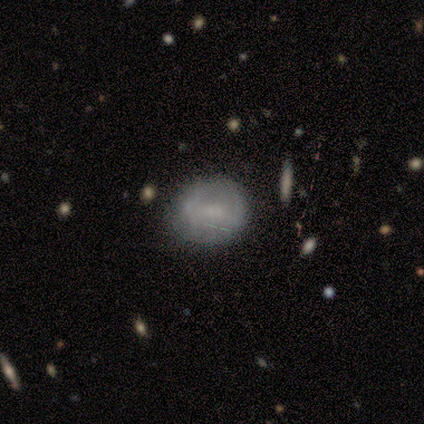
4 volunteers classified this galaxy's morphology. Smooth or featured? 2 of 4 (50%) said featured or disk. Edge-on disk? 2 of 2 (100%) said no. Bar? 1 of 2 (50%, tied with no) said weak. Spiral arms? 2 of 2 (100%) said yes. Spiral winding? 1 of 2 (50%, tied with loose) said tight. Spiral arm count? 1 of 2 (50%, tied with 3) said 2. Bulge size? 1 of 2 (50%, tied with small) said moderate. Merging? 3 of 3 (100%) said none.